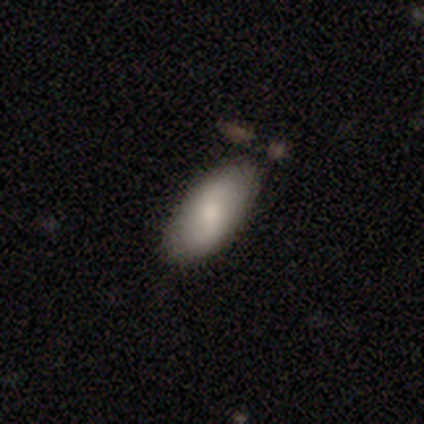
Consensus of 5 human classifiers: Volunteers were most divided on "smooth or featured": smooth: 60%, featured or disk: 20%, star or artifact: 20%. More confident: how rounded — in between (100%); merging — none (75%).